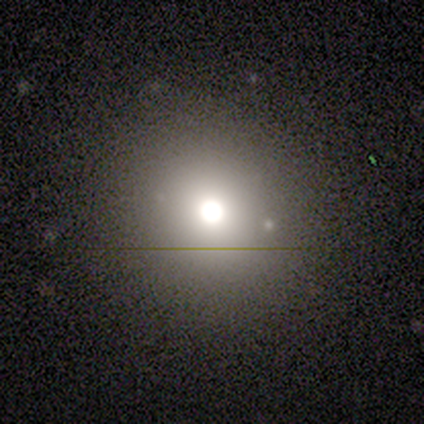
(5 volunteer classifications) Q: Smooth or featured?
A: smooth (60%); runner-up: featured or disk (20%)
Q: How rounded?
A: round (100%)
Q: Merging?
A: none (100%)